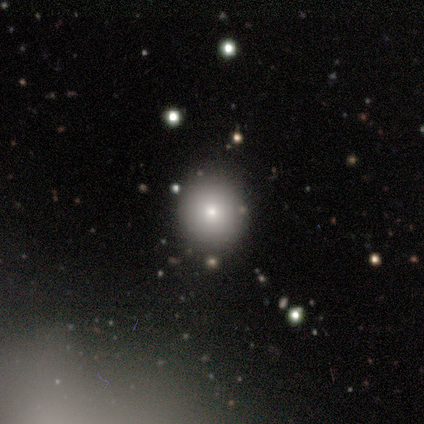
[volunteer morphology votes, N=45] smooth-or-featured: smooth: 76% | featured or disk: 13% | star or artifact: 11%
  how-rounded: round: 85% | in between: 15% | cigar-shaped: 0%
  merging: none: 78% | minor disturbance: 20% | merger: 2% | major disturbance: 0%